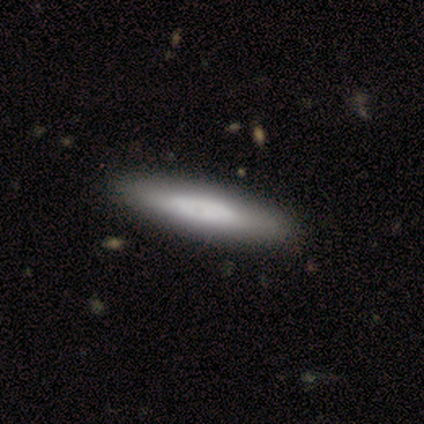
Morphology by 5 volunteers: This is clearly a smooth galaxy (80%). How rounded: clearly cigar-shaped (100%). Merging: clearly none (100%).